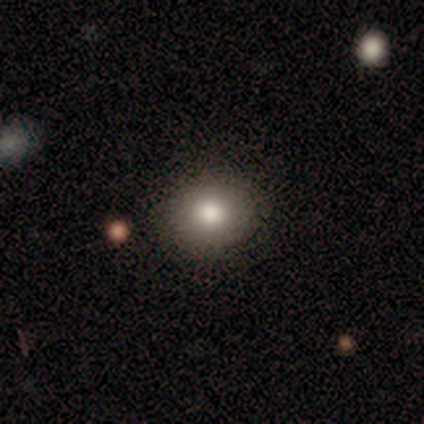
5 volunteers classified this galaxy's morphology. smooth-or-featured: smooth: 80% | star or artifact: 20% | featured or disk: 0%
  how-rounded: in between: 75% | round: 25% | cigar-shaped: 0%
  merging: none: 75% | minor disturbance: 25% | major disturbance: 0% | merger: 0%